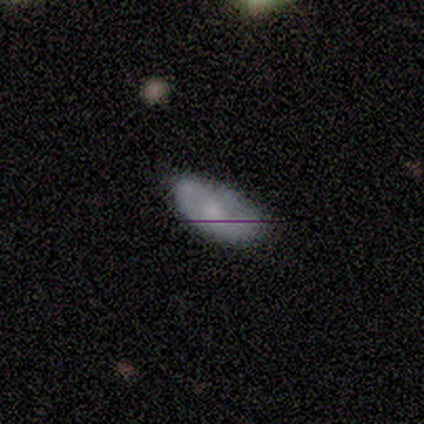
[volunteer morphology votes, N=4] smooth 50% (tied), featured or disk 50% (tied), star or artifact 0%. Down the decision tree: how rounded — in between (100%); merging — none (50%).